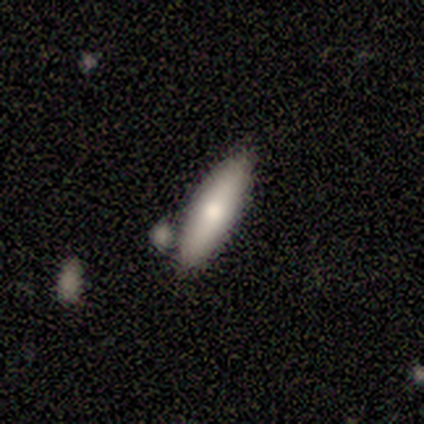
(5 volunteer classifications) Q: Smooth or featured?
A: smooth (60%); runner-up: featured or disk (40%)
Q: How rounded?
A: cigar-shaped (67%); runner-up: in between (33%)
Q: Merging?
A: none (40%); tied with: minor disturbance (40%)